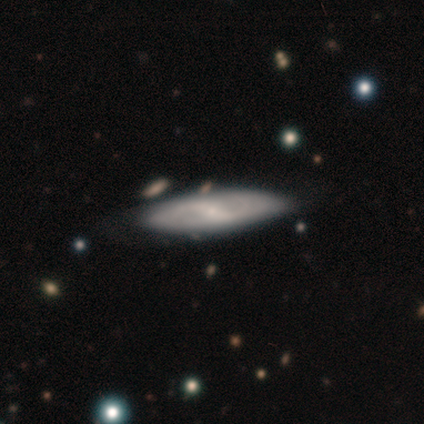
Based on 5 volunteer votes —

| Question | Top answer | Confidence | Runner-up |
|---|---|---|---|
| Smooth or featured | smooth | 100% | — |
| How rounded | cigar-shaped | 80% | in between (20%) |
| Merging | none | 80% | minor disturbance (20%) |